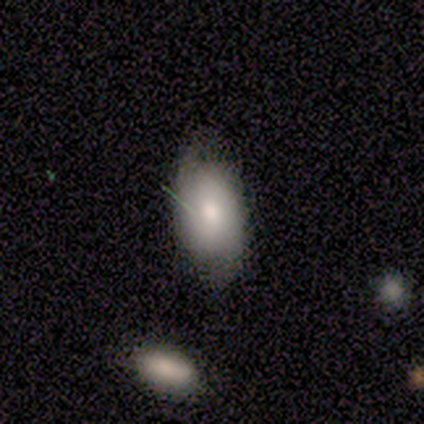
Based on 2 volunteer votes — Smooth or featured?
  - smooth: 50% * (tied)
  - featured or disk: 50% * (tied)
  - star or artifact: 0%
How rounded?
  - in between: 100% *
  - round: 0%
  - cigar-shaped: 0%
Merging?
  - none: 50% * (tied)
  - minor disturbance: 50% * (tied)
  - major disturbance: 0%
  - merger: 0%